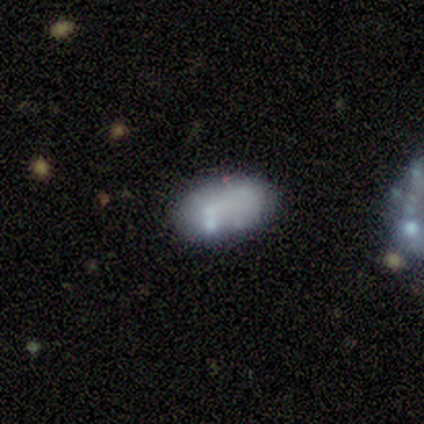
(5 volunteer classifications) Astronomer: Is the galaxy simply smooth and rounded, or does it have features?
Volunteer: smooth — 100%.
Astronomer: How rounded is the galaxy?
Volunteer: in between — 80%.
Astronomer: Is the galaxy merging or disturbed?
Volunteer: none — 40%, tied with minor disturbance at 40%.